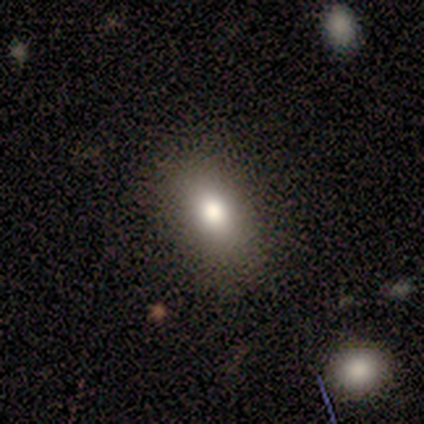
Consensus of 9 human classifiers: smooth 44%, star or artifact 33%, featured or disk 22%. Down the decision tree: how rounded — in between (100%); merging — none (67%).